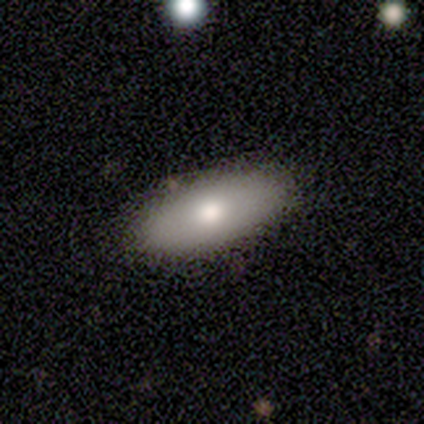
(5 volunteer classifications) Smooth or featured? smooth (80%)
How rounded? in between (75%)
Merging? none (80%)